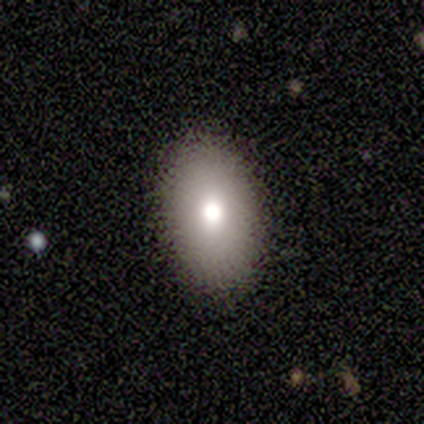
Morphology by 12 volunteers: smooth 92%, featured or disk 8%, star or artifact 0%. Down the decision tree: how rounded — in between (82%); merging — none (92%).